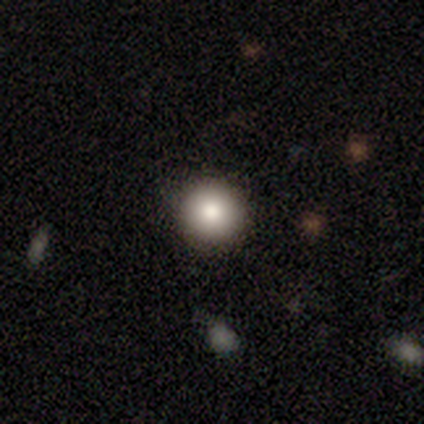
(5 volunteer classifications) This is clearly a smooth galaxy (100%). How rounded: clearly round (80%). Merging: clearly none (100%).